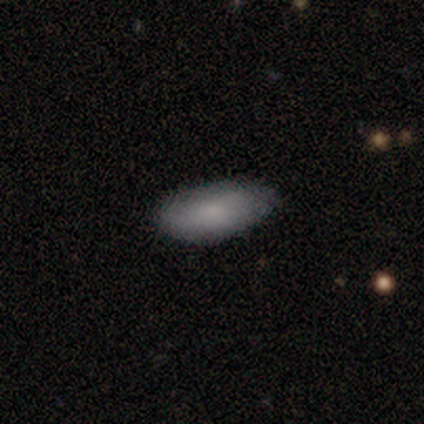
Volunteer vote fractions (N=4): Smooth or featured?
  - smooth: 75% *
  - star or artifact: 25%
  - featured or disk: 0%
How rounded?
  - in between: 100% *
  - round: 0%
  - cigar-shaped: 0%
Merging?
  - none: 33% * (tied)
  - minor disturbance: 33% * (tied)
  - merger: 33% * (tied)
  - major disturbance: 0%